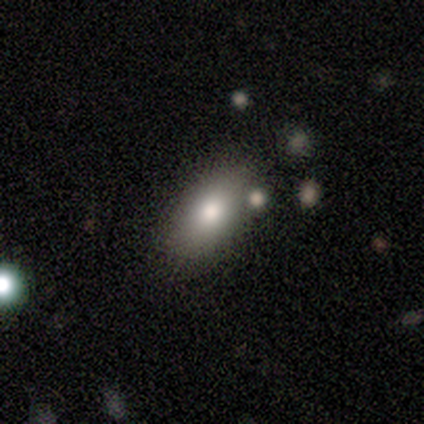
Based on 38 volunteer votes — Volunteers were most divided on "merging": none: 71%, minor disturbance: 14%, merger: 14%, major disturbance: 0%. More confident: how rounded — in between (91%); smooth or featured — smooth (87%).